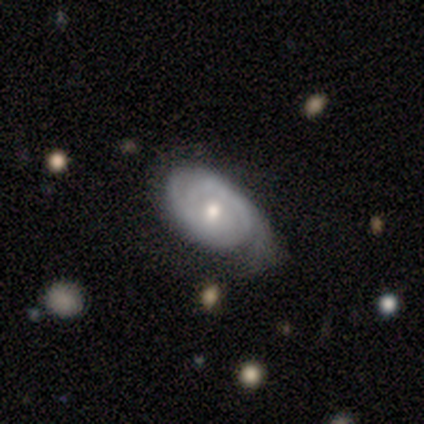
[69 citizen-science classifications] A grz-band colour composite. It shows a featured or disk galaxy (81%) with no bar (72%), 2 (56%) tight (68%) spiral arms (93%) and a moderate central bulge (63%). Merging: none (48%).